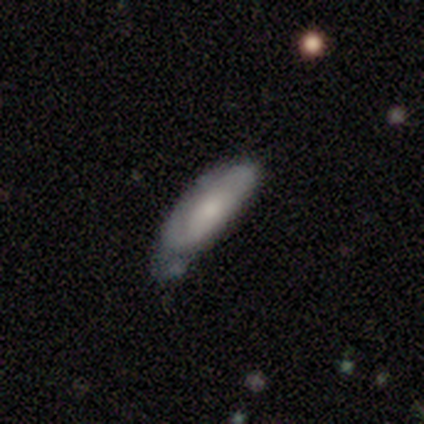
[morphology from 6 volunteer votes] Volunteers were most divided on "merging": minor disturbance: 50%, none: 33%, major disturbance: 17%, merger: 0%. More confident: smooth or featured — smooth (100%); how rounded — cigar-shaped (67%).